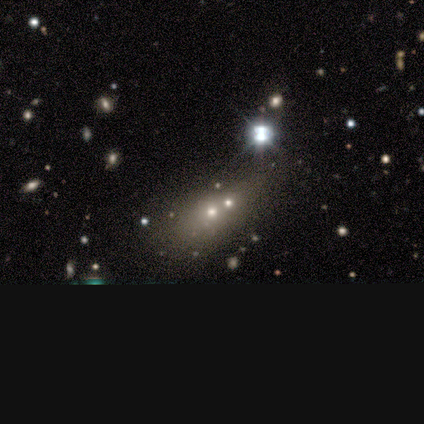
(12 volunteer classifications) Morphology: type=smooth (75%); roundness=in between (67%); merging=merger (60%).